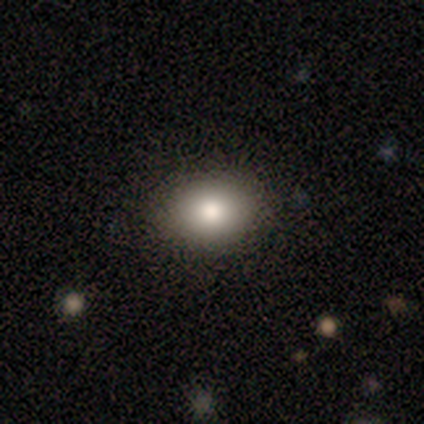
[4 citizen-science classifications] This is possibly a smooth galaxy (50%, tied with featured or disk). How rounded: possibly round (50%, tied with in between). Merging: clearly none (100%).